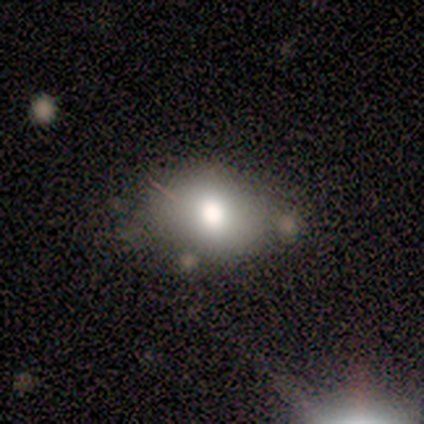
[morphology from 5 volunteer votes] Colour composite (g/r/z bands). It shows a smooth galaxy with no disk features (60%) that is in between round and cigar-shaped (67%). Merging: none (40%, tied with minor disturbance).